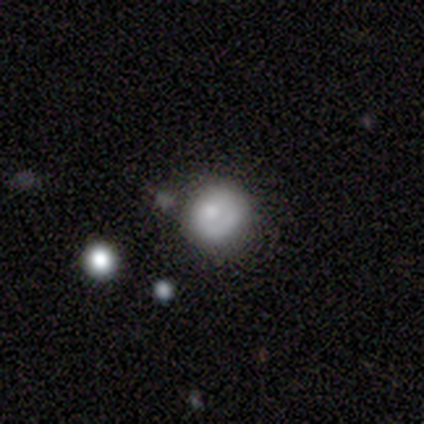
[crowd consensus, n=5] Overall: smooth (60%; featured or disk 40%). How rounded: round (100%). Merging: none (40%, tied with minor disturbance).